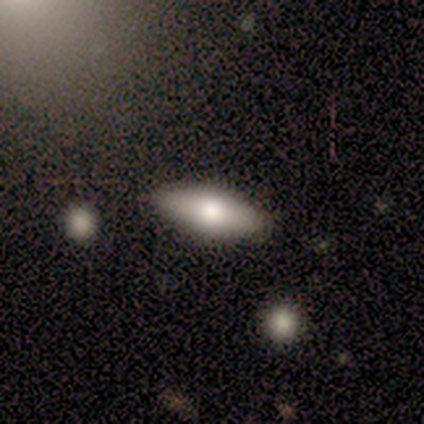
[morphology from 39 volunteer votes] Overall: smooth (67%; featured or disk 28%). How rounded: in between (73%). Merging: none (49%).